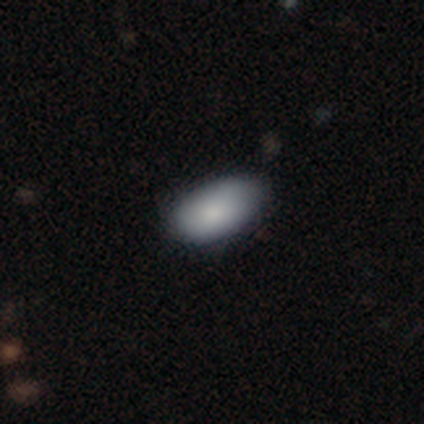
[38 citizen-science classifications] A smooth galaxy with no disk features (82%) that is in between round and cigar-shaped (97%). Merging: none (70%).